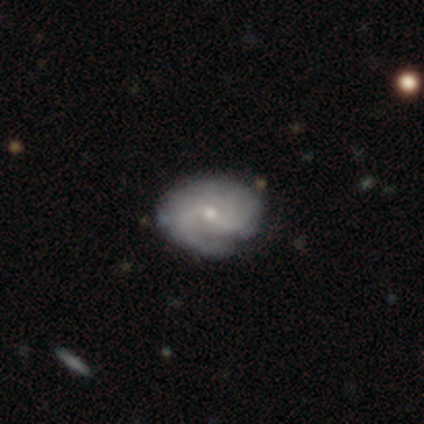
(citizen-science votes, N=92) A featured or disk galaxy (76%) with no bar (77%), tight (46%) spiral arms (98%) and a small central bulge (77%).

Vote fractions:
- Smooth or featured? featured or disk: 76% / smooth: 16% / star or artifact: 8%
- Edge-on disk? no: 94% / yes: 6%
- Bar? no: 77% / weak: 21% / strong: 2%
- Spiral arms? yes: 98% / no: 2%
- Spiral winding? tight: 46% / medium: 38% / loose: 15%
- Spiral arm count? can't tell: 42% / 2: 18% / 3: 15% / 1: 11% / 4: 9% / more than 4: 5%
- Bulge size? small: 77% / moderate: 23% / dominant: 0% / large: 0% / none: 0%
- Merging? none: 66% / minor disturbance: 28% / major disturbance: 4% / merger: 2%